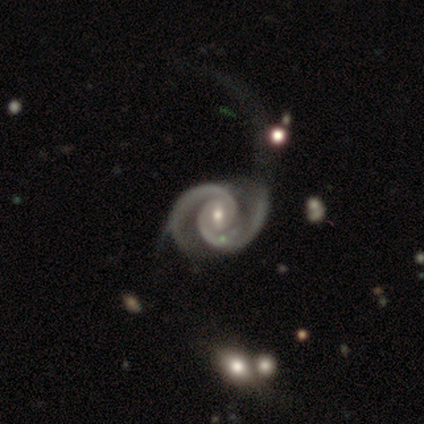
Smooth or featured?
  - featured or disk: 100% *
  - smooth: 0%
  - star or artifact: 0%
Edge-on disk?
  - no: 100% *
  - yes: 0%
Bar?
  - no: 60% *
  - weak: 40%
  - strong: 0%
Spiral arms?
  - yes: 100% *
  - no: 0%
Spiral winding?
  - tight: 60% *
  - medium: 40%
  - loose: 0%
Spiral arm count?
  - 2: 100% *
  - 1: 0%
  - 3: 0%
  - 4: 0%
  - more than 4: 0%
  - can't tell: 0%
Bulge size?
  - small: 60% *
  - moderate: 40%
  - dominant: 0%
  - large: 0%
  - none: 0%
Merging?
  - none: 60% *
  - minor disturbance: 40%
  - major disturbance: 0%
  - merger: 0%